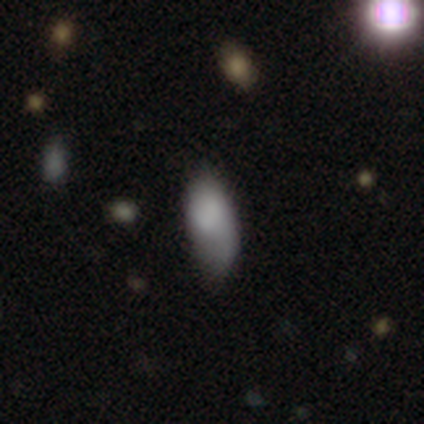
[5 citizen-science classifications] Smooth or featured? smooth (80%)
How rounded? in between (100%)
Merging? none (40%, tied with minor disturbance)